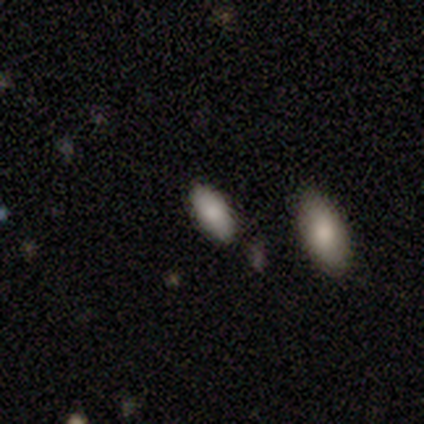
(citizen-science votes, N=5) A smooth galaxy with no disk features (80%) that is in between round and cigar-shaped (75%). Merging: none (100%).